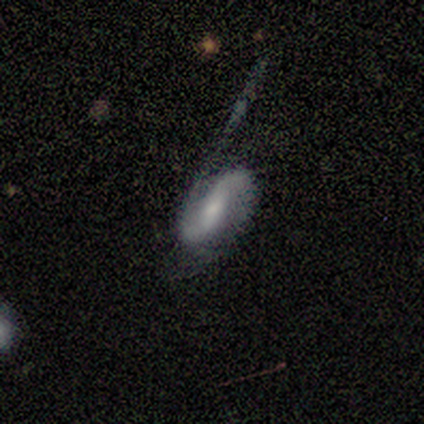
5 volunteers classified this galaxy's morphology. This is clearly a featured or disk galaxy (100%). It is clearly not viewed edge-on (100%). Bar: likely strong (60%). Spiral arm pattern: clearly yes (100%). Spiral arm count: clearly 2 (100%). Spiral winding: likely medium (60%). Central bulge: clearly small (80%). Merging: likely major disturbance (60%).